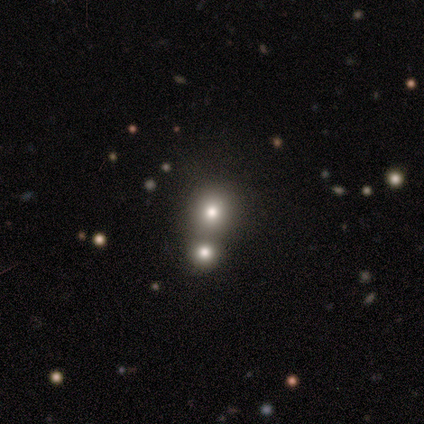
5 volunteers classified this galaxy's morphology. A smooth galaxy with no disk features (100%) that is round (100%). Merging: none (80%).